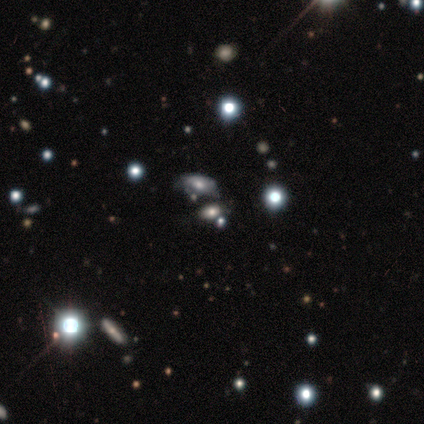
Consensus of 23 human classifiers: Smooth or featured?
  - smooth: 43% *
  - star or artifact: 30%
  - featured or disk: 26%
How rounded?
  - in between: 100% *
  - round: 0%
  - cigar-shaped: 0%
Merging?
  - none: 44% * (tied)
  - minor disturbance: 44% * (tied)
  - merger: 12%
  - major disturbance: 0%